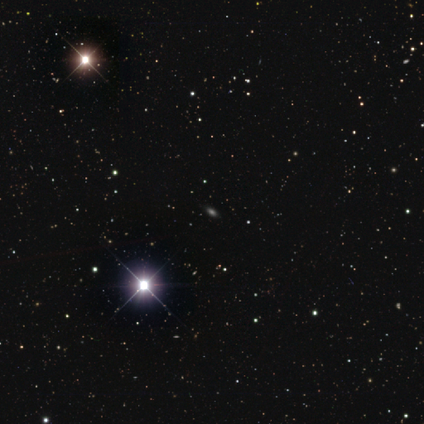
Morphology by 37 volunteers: This is likely a star or artifact rather than a galaxy (65%).